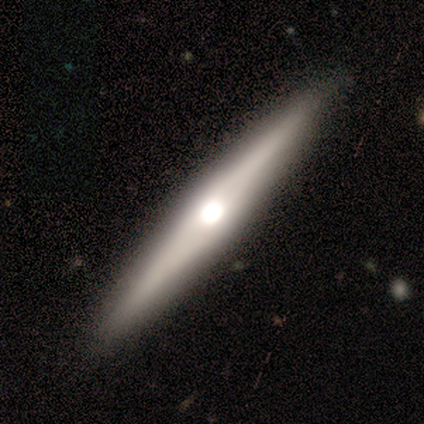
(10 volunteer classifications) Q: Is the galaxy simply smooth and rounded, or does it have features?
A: featured or disk — 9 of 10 (90%).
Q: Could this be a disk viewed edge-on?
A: yes — 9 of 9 (100%).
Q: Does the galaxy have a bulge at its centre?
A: rounded — 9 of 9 (100%).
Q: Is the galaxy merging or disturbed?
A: none — 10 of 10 (100%).